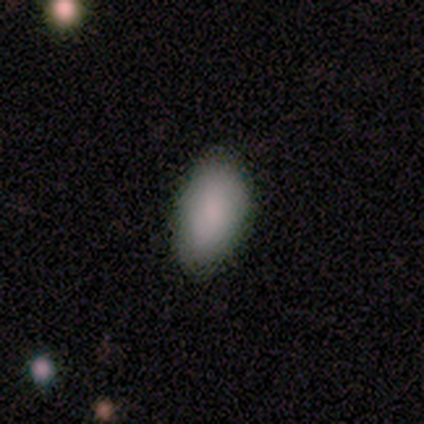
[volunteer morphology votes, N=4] A smooth galaxy with no disk features (75%) that is in between round and cigar-shaped (100%). Merging: none (75%).